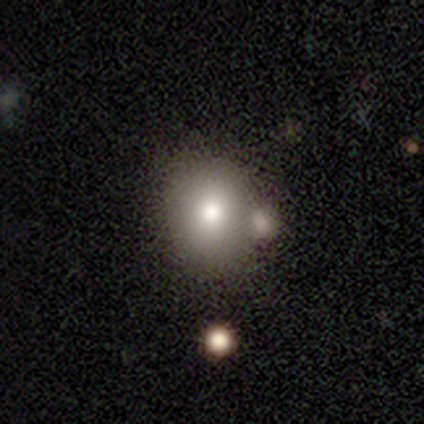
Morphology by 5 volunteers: This appears to be a smooth galaxy with no disk features (100%) that is in between round and cigar-shaped (60%). Merging: none (80%).